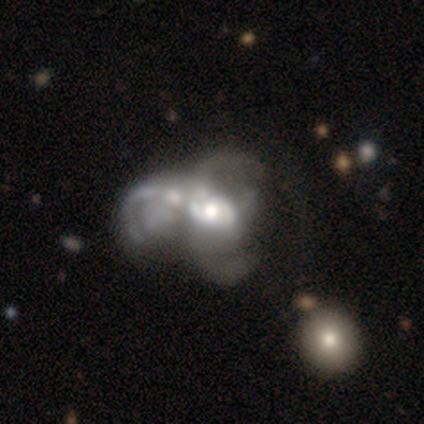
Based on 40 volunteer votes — Volunteers were most divided on "spiral arm count" (2-way tie): 2: 38%, can't tell: 38%, 1: 10%, 3: 10%, more than 4: 5%, 4: 0%. More confident: edge-on disk — no (97%); smooth or featured — featured or disk (80%); bar — no (74%); spiral arms — yes (68%); spiral winding — loose (62%); merging — merger (57%); bulge size — moderate (55%).